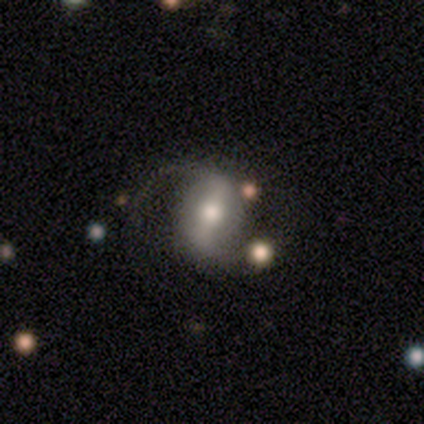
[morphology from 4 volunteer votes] Smooth or featured?
  - featured or disk: 75% *
  - star or artifact: 25%
  - smooth: 0%
Edge-on disk?
  - no: 100% *
  - yes: 0%
Bar?
  - strong: 67% *
  - weak: 33%
  - no: 0%
Spiral arms?
  - yes: 100% *
  - no: 0%
Spiral winding?
  - loose: 67% *
  - medium: 33%
  - tight: 0%
Spiral arm count?
  - 2: 100% *
  - 1: 0%
  - 3: 0%
  - 4: 0%
  - more than 4: 0%
  - can't tell: 0%
Bulge size?
  - moderate: 67% *
  - large: 33%
  - dominant: 0%
  - small: 0%
  - none: 0%
Merging?
  - none: 67% *
  - minor disturbance: 33%
  - major disturbance: 0%
  - merger: 0%